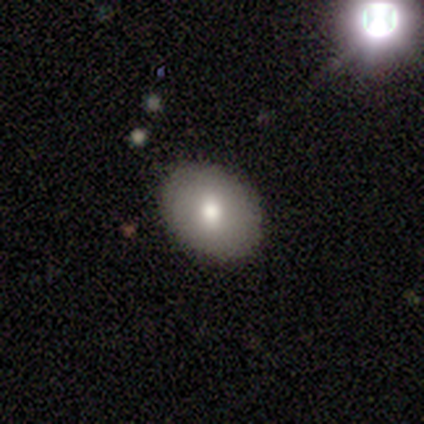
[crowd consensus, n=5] A smooth galaxy with no disk features (60%) that is in between round and cigar-shaped (67%). Merging: none (80%).